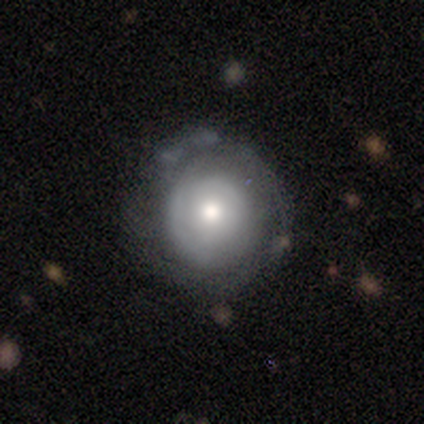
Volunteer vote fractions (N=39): smooth-or-featured: featured or disk: 49% | smooth: 44% | star or artifact: 8%
  disk-edge-on: no: 95% | yes: 5%
    bar: no: 89% | strong: 6% | weak: 6%
    has-spiral-arms: yes: 72% | no: 28%
      spiral-winding: tight: 77% | loose: 15% | medium: 8%
      spiral-arm-count: can't tell: 77% | 1: 23% | 2: 0% | 3: 0% | 4: 0% | more than 4: 0%
    bulge-size: moderate: 44% | small: 28% | large: 22% | dominant: 6% | none: 0%
  merging: none: 53% | minor disturbance: 31% | major disturbance: 11% | merger: 6%